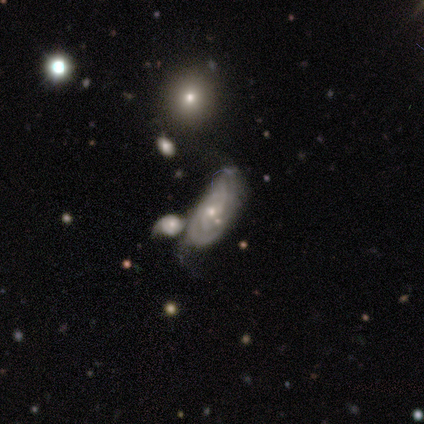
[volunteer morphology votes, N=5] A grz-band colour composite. It shows a featured or disk galaxy (100%) with no bar (60%), tight (40%, tied with loose) spiral arms (100%) and a small central bulge (80%). Merging: merger (40%).